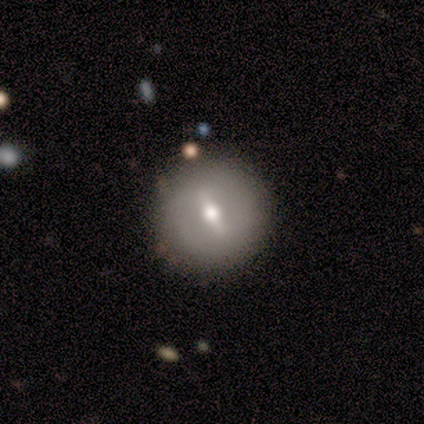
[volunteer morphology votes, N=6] Smooth or featured? 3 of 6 (50%, tied with featured or disk) said smooth. How rounded? 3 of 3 (100%) said round. Merging? 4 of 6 (67%) said none.